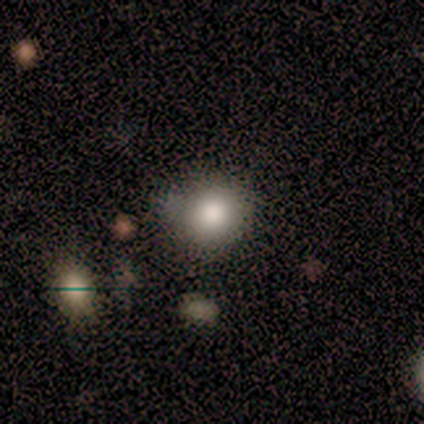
This appears to be a smooth galaxy with no disk features (100%) that is round (67%). Merging: minor disturbance (67%).